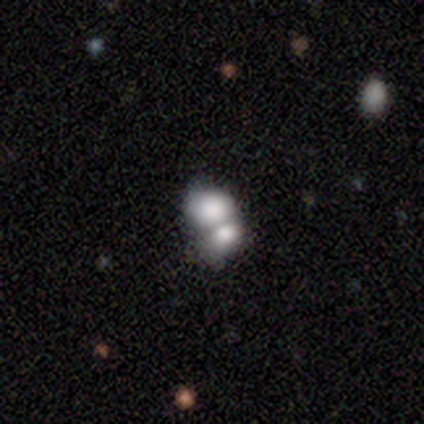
Smooth or featured? 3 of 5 (60%) said smooth. How rounded? 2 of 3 (67%) said in between. Merging? 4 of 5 (80%) said merger.